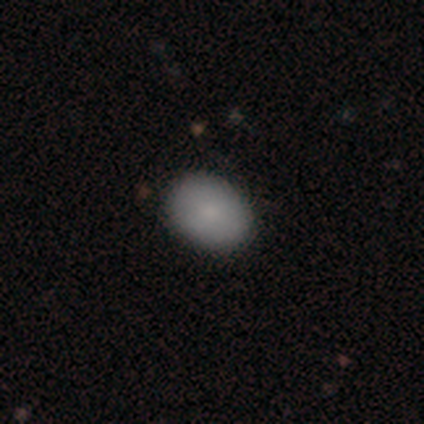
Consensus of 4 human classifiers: Smooth or featured: smooth — 100%
How rounded: in between — 100%
Merging: none — 100%